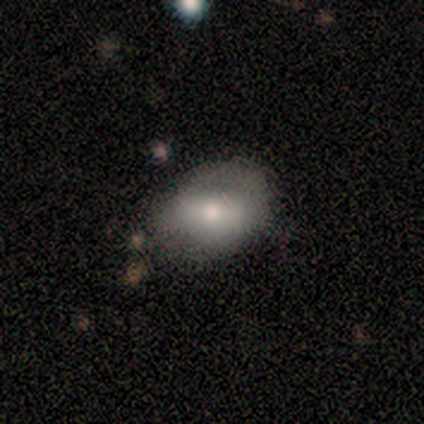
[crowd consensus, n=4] Smooth or featured? 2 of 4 (50%) said smooth. How rounded? 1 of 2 (50%, tied with in between) said round. Merging? 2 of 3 (67%) said minor disturbance.